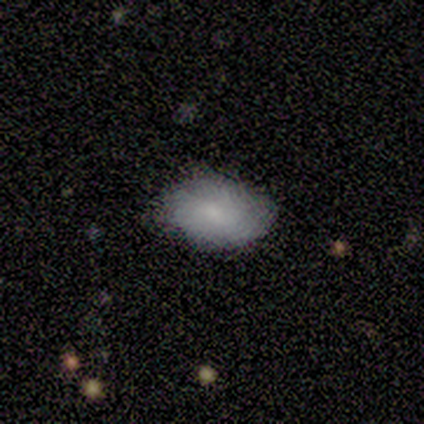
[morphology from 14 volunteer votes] Q: Smooth or featured?
A: smooth (71%); runner-up: featured or disk (14%)
Q: How rounded?
A: in between (100%)
Q: Merging?
A: none (67%); runner-up: minor disturbance (33%)